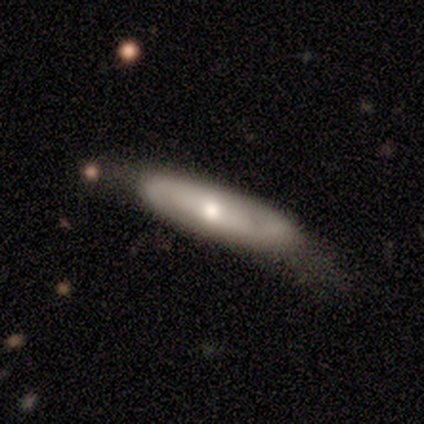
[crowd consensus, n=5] smooth-or-featured: featured or disk: 60% | smooth: 40% | star or artifact: 0%
  disk-edge-on: no: 100% | yes: 0%
    bar: strong: 33% (tied) | weak: 33% (tied) | no: 33% (tied)
    has-spiral-arms: yes: 67% | no: 33%
      spiral-winding: loose: 100% | tight: 0% | medium: 0%
      spiral-arm-count: 2: 100% | 1: 0% | 3: 0% | 4: 0% | more than 4: 0% | can't tell: 0%
    bulge-size: small: 67% | moderate: 33% | dominant: 0% | large: 0% | none: 0%
  merging: none: 60% | minor disturbance: 20% | major disturbance: 20% | merger: 0%